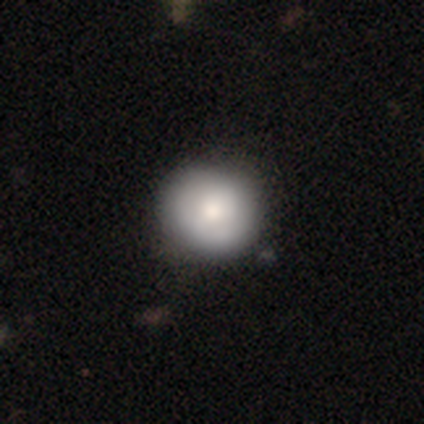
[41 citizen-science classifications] Volunteers were most divided on "smooth or featured": smooth: 76%, star or artifact: 15%, featured or disk: 10%. More confident: how rounded — round (100%); merging — none (86%).